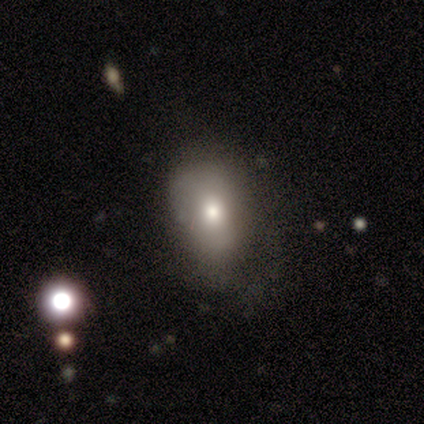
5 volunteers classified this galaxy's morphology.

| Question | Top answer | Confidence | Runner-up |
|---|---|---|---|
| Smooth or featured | smooth | 80% | star or artifact (20%) |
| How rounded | in between | 75% | round (25%) |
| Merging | none | 50% | tied: minor disturbance (50%) |